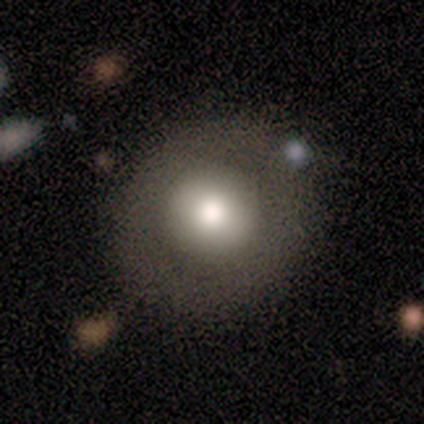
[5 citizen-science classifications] smooth 100%, featured or disk 0%, star or artifact 0%. Down the decision tree: how rounded — round (80%); merging — none (100%).